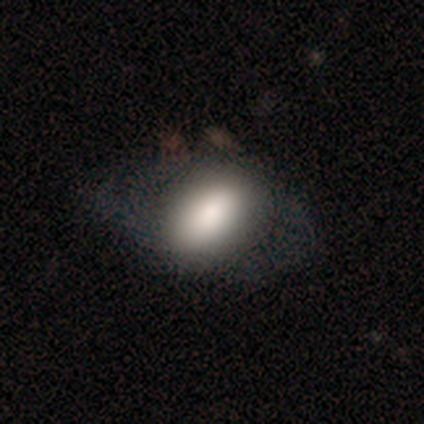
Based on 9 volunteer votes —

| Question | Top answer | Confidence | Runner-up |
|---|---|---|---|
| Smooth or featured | smooth | 78% | featured or disk (22%) |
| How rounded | in between | 100% | — |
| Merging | none | 44% | major disturbance (33%) |